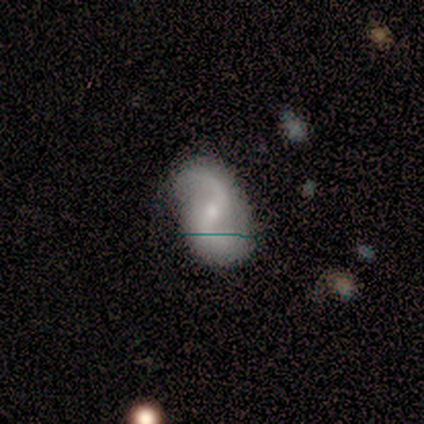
Smooth or featured?
  - featured or disk: 76% *
  - smooth: 14%
  - star or artifact: 11%
Edge-on disk?
  - no: 96% *
  - yes: 4%
Bar?
  - weak: 41% *
  - strong: 30%
  - no: 30%
Spiral arms?
  - yes: 100% *
  - no: 0%
Spiral winding?
  - loose: 67% *
  - medium: 30%
  - tight: 4%
Spiral arm count?
  - 2: 93% *
  - 1: 4%
  - can't tell: 4%
  - 3: 0%
  - 4: 0%
  - more than 4: 0%
Bulge size?
  - small: 63% *
  - moderate: 33%
  - large: 4%
  - dominant: 0%
  - none: 0%
Merging?
  - none: 70% *
  - minor disturbance: 18%
  - major disturbance: 12%
  - merger: 0%